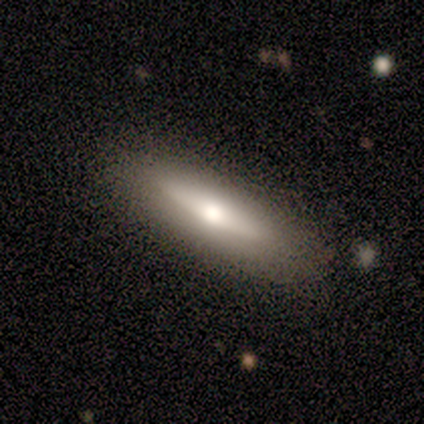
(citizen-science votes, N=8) A smooth galaxy with no disk features (62%) that is cigar-shaped (80%).

Vote fractions:
- Smooth or featured? smooth: 62% / featured or disk: 38% / star or artifact: 0%
- How rounded? cigar-shaped: 80% / in between: 20% / round: 0%
- Merging? none: 88% / minor disturbance: 12% / major disturbance: 0% / merger: 0%